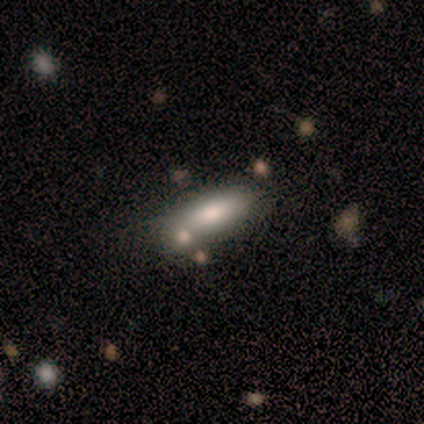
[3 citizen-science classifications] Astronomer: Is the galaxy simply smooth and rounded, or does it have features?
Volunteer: smooth — 67%.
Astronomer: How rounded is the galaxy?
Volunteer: in between — 100%.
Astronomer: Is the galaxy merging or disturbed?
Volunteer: none — 67%.